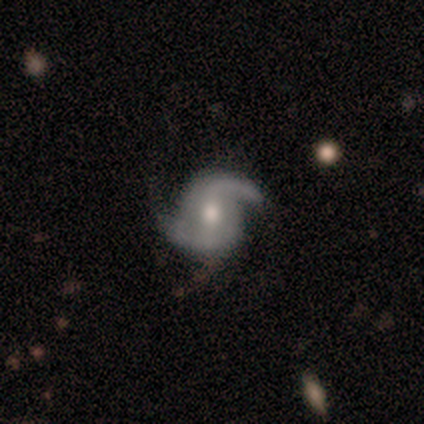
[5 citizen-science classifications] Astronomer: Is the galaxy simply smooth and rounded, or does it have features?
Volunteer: featured or disk — 100%.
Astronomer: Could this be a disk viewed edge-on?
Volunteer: no — 100%.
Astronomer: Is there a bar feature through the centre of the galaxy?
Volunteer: no — 60% (runner-up: weak, 40%).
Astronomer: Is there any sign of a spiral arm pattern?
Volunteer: yes — 100%.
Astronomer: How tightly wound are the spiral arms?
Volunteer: medium — 60% (runner-up: loose, 40%).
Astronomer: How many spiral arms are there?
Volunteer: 2 — 100%.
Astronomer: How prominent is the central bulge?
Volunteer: moderate — 100%.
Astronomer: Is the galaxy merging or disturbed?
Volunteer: none — 80%.